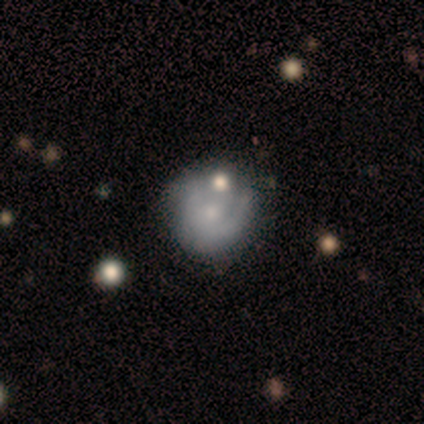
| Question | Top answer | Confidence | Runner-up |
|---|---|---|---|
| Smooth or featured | featured or disk | 50% | smooth (43%) |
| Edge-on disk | no | 100% | — |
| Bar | no | 86% | weak (14%) |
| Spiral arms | yes | 57% | no (43%) |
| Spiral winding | tight | 75% | medium (25%) |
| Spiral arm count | can't tell | 50% | 1 (25%) |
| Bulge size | small | 57% | moderate (29%) |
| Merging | none | 46% | major disturbance (23%) |